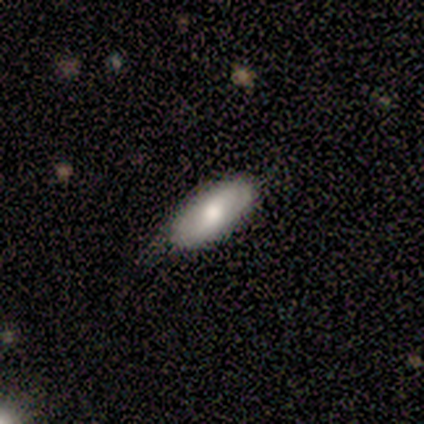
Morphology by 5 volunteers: This is clearly a smooth galaxy (80%). How rounded: clearly in between (100%). Merging: likely none (60%).